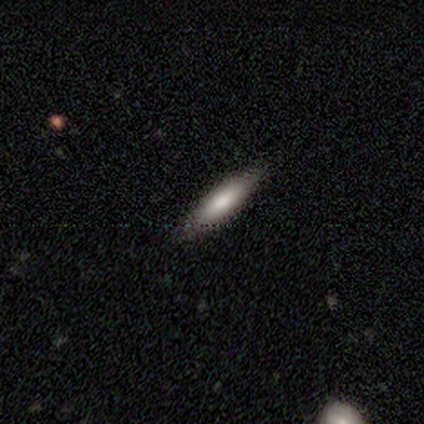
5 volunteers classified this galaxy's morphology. smooth 60%, featured or disk 40%, star or artifact 0%. Down the decision tree: how rounded — cigar-shaped (100%); merging — none (100%).